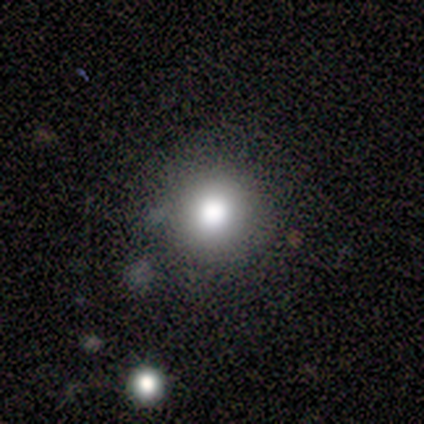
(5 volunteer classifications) This appears to be a smooth galaxy with no disk features (40%, tied with star or artifact) that is round (100%). Merging: none (100%).